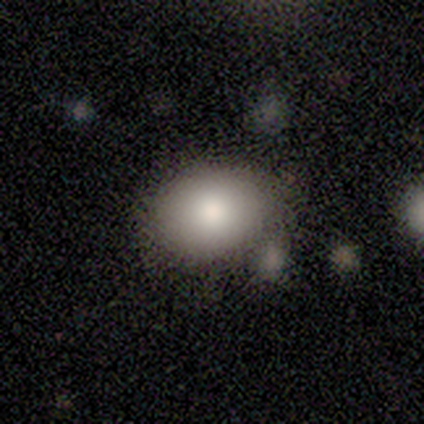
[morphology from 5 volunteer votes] smooth_or_featured: smooth (p=0.80) [alt: featured or disk p=0.20]
how_rounded: round (p=0.50) [tied with: in between p=0.50]
merging: none (p=0.80) [alt: merger p=0.20]